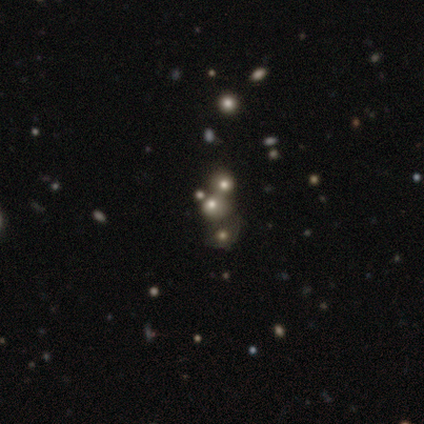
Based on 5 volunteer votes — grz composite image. It shows a smooth galaxy with no disk features (40%, tied with star or artifact) that is round (50%, tied with in between). Merging: merger (100%).